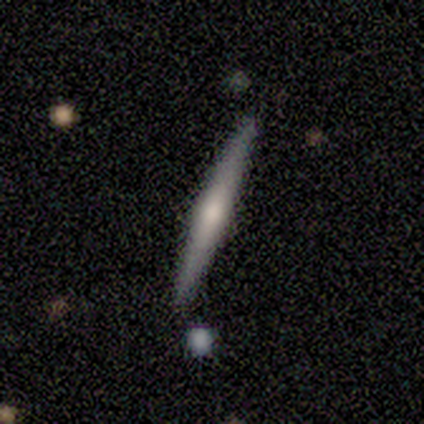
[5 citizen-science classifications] smooth 60%, featured or disk 40%, star or artifact 0%. Down the decision tree: how rounded — cigar-shaped (100%); merging — none (80%).